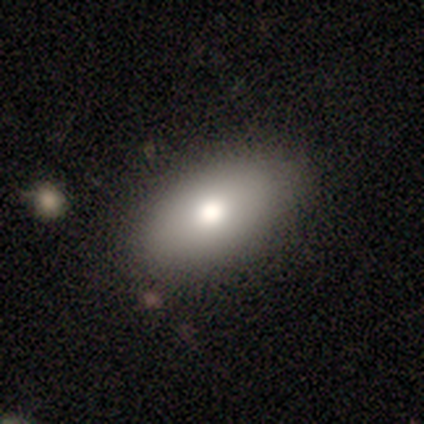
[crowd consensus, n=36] Smooth or featured?
  - smooth: 75% *
  - featured or disk: 14%
  - star or artifact: 11%
How rounded?
  - in between: 89% *
  - round: 11%
  - cigar-shaped: 0%
Merging?
  - none: 91% *
  - minor disturbance: 6%
  - merger: 3%
  - major disturbance: 0%